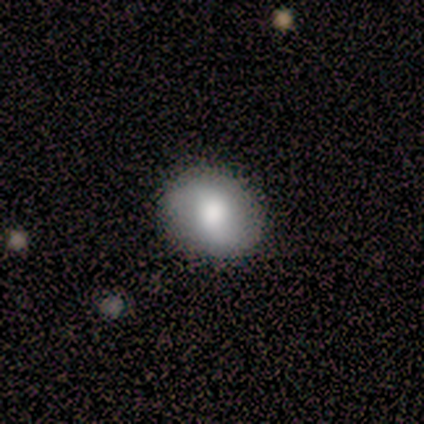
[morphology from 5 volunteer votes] Smooth or featured? 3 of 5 (60%) said smooth. How rounded? 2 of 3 (67%) said in between. Merging? 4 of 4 (100%) said none.